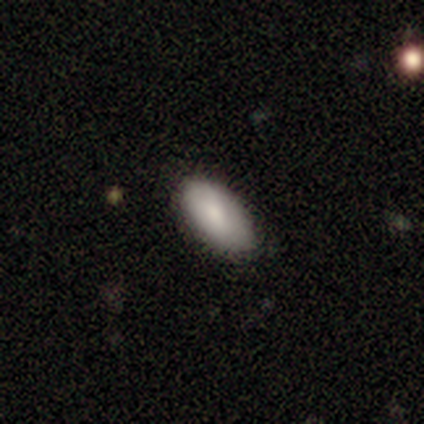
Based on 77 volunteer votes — Q: Smooth or featured?
A: smooth (87%); runner-up: featured or disk (9%)
Q: How rounded?
A: in between (97%); runner-up: round (3%)
Q: Merging?
A: none (38%); runner-up: minor disturbance (15%)